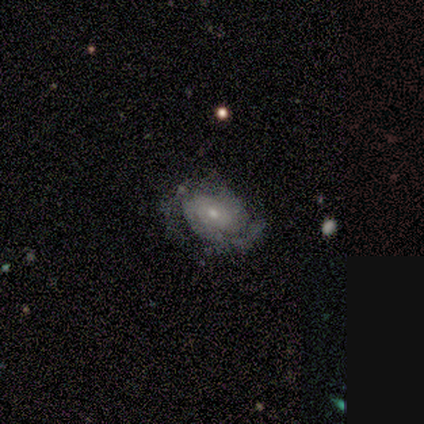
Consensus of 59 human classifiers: Q: Smooth or featured?
A: featured or disk (88%); runner-up: smooth (12%)
Q: Edge-on disk?
A: no (96%); runner-up: yes (4%)
Q: Bar?
A: no (86%); runner-up: weak (12%)
Q: Spiral arms?
A: yes (84%); runner-up: no (16%)
Q: Spiral winding?
A: tight (67%); runner-up: medium (21%)
Q: Spiral arm count?
A: 2 (57%); runner-up: can't tell (29%)
Q: Bulge size?
A: small (68%); runner-up: moderate (28%)
Q: Merging?
A: none (56%); runner-up: minor disturbance (32%)